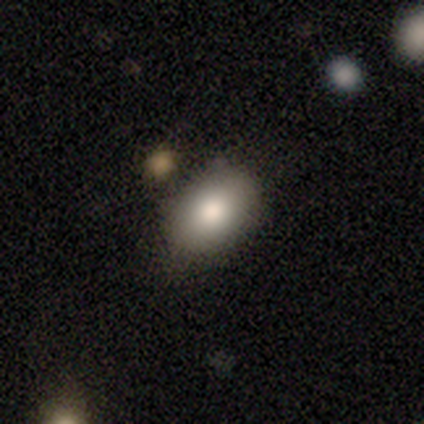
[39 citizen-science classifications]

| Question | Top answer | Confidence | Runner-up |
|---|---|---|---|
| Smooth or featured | smooth | 77% | star or artifact (18%) |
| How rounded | in between | 90% | round (10%) |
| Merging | none | 75% | minor disturbance (22%) |